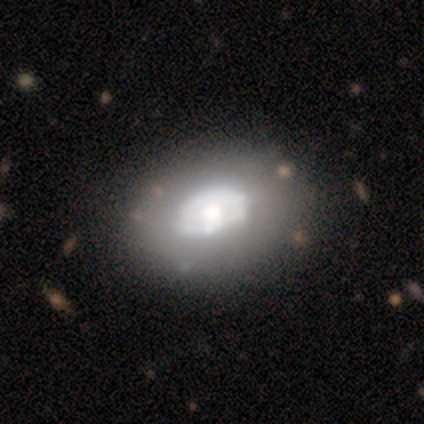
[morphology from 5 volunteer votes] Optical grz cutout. It shows a featured or disk galaxy (60%) with no bar (100%), no spiral arms (100%) and a moderate central bulge (67%). Merging: none (60%).